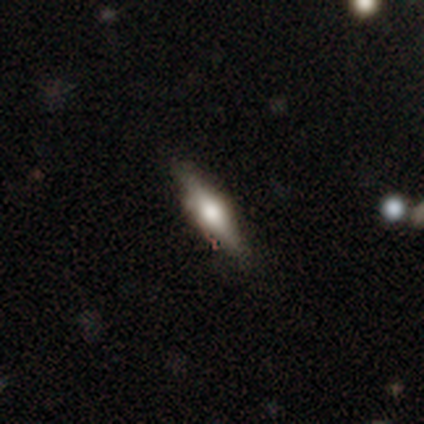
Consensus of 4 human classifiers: featured or disk 100%, smooth 0%, star or artifact 0%. Down the decision tree: edge-on disk — yes (100%); edge-on bulge — rounded (100%); merging — none (75%).